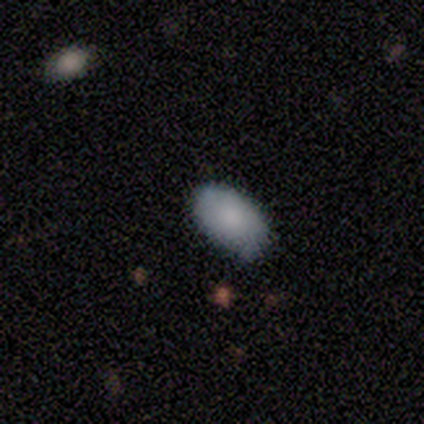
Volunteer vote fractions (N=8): smooth-or-featured: smooth: 88% | featured or disk: 12% | star or artifact: 0%
  how-rounded: in between: 100% | round: 0% | cigar-shaped: 0%
  merging: none: 88% | minor disturbance: 12% | major disturbance: 0% | merger: 0%